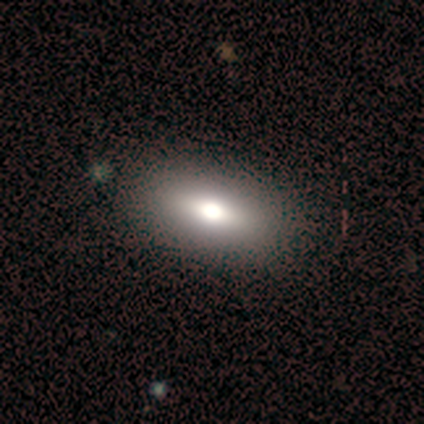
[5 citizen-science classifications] Overall: smooth (80%). How rounded: in between (100%). Merging: none (100%).